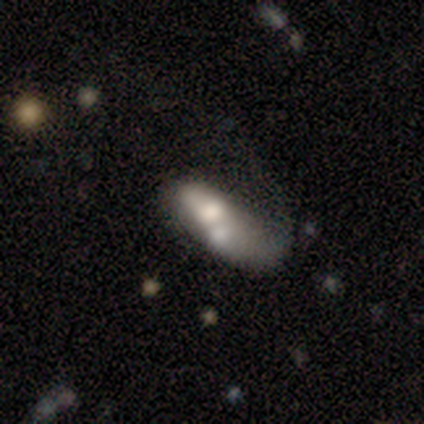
Overall: featured or disk (80%). Edge-on disk: no (75%). Bar: no (67%; weak 33%). Spiral arms: yes (67%; no 33%). Spiral arm count: 1 (50%, tied with can't tell). Spiral winding: loose (100%). Bulge size: large (67%; moderate 33%). Merging: major disturbance (40%, tied with merger).